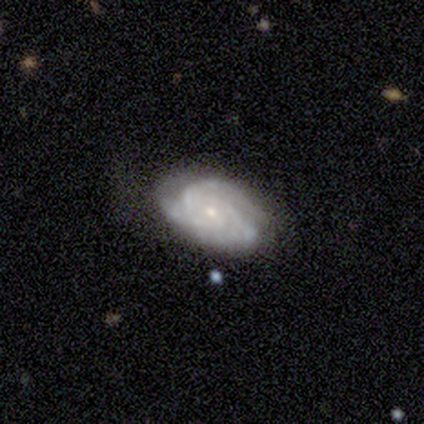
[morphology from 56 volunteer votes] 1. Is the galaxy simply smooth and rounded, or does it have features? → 82% featured or disk, 12% smooth, 5% star or artifact.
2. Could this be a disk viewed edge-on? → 96% no, 4% yes.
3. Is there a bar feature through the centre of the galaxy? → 91% no, 9% weak, 0% strong.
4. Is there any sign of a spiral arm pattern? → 98% yes, 2% no.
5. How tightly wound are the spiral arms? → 74% tight, 23% medium, 2% loose.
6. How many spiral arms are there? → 60% 3, 19% can't tell, 14% 2, 5% 4, 2% more than 4, 0% 1.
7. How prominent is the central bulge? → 75% small, 25% moderate, 0% dominant, 0% large, 0% none.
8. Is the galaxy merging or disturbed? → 74% none, 19% minor disturbance, 8% major disturbance, 0% merger.